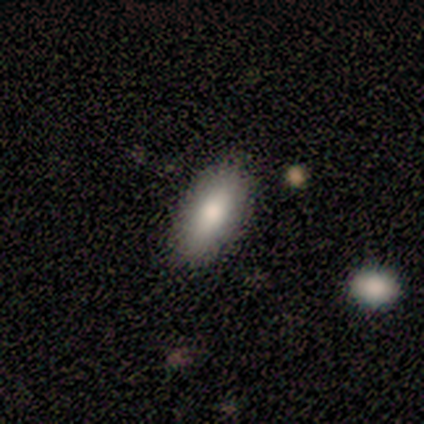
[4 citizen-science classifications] Volunteers were most divided on "smooth or featured": smooth: 75%, featured or disk: 25%, star or artifact: 0%. More confident: how rounded — in between (100%); merging — none (75%).